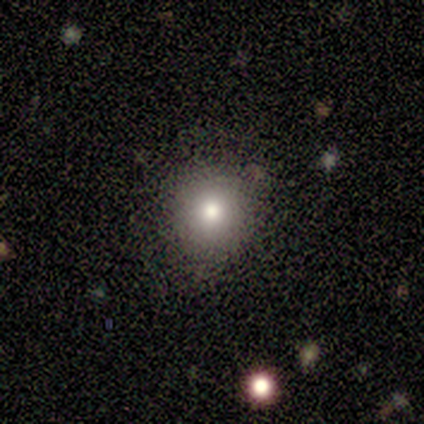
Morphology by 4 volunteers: This is likely a smooth galaxy (75%). How rounded: clearly round (100%). Merging: possibly none (50%, tied with minor disturbance).